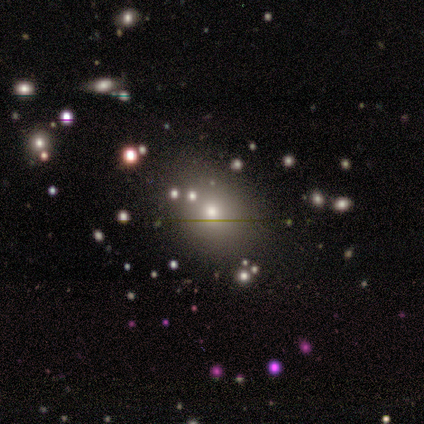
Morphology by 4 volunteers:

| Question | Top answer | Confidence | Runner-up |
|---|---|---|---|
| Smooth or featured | star or artifact | 50% | smooth (25%) |